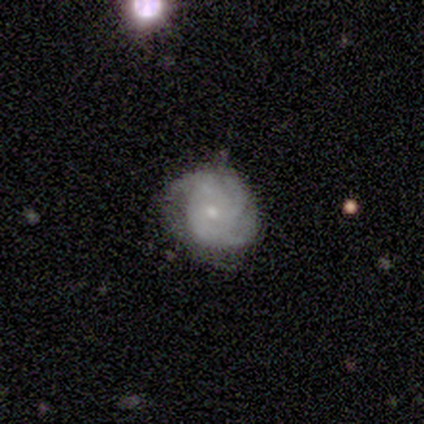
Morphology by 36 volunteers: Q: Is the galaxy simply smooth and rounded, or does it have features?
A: featured or disk — 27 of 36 (75%).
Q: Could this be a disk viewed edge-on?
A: no — 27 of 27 (100%).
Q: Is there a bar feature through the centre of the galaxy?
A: no — 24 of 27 (89%).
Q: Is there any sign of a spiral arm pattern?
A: yes — 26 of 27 (96%).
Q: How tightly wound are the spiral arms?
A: tight — 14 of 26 (54%).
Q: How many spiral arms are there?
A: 3 — 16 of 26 (62%).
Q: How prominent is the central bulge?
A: small — 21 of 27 (78%).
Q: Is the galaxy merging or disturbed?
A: none — 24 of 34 (71%).